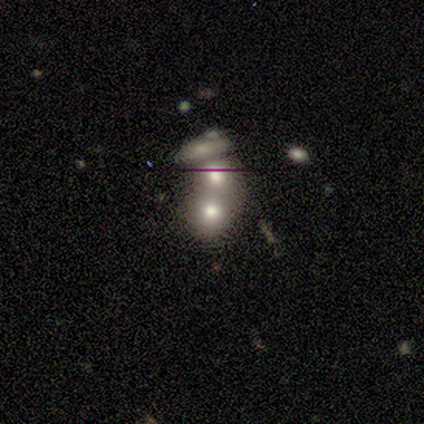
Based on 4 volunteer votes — Smooth or featured: smooth — 100%
How rounded: round — 100%
Merging: merger — 75% (none — 25%)